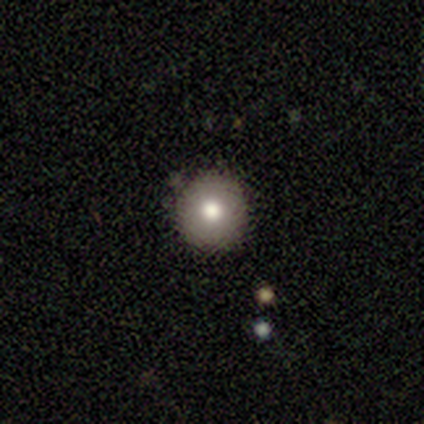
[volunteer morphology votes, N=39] Overall: smooth (72%). How rounded: round (93%). Merging: none (91%).